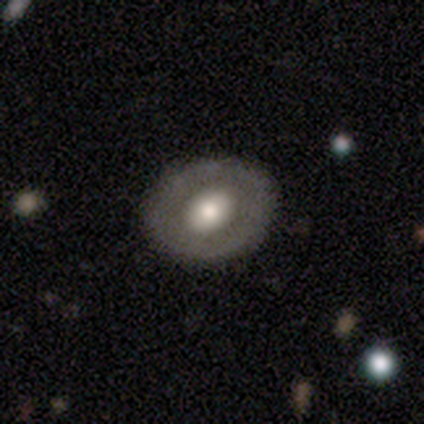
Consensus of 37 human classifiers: This is possibly a featured or disk galaxy (51%). It is clearly not viewed edge-on (95%). Bar: clearly no (83%). Spiral arm pattern: clearly no (83%). Central bulge: possibly moderate (50%). Merging: clearly none (86%).